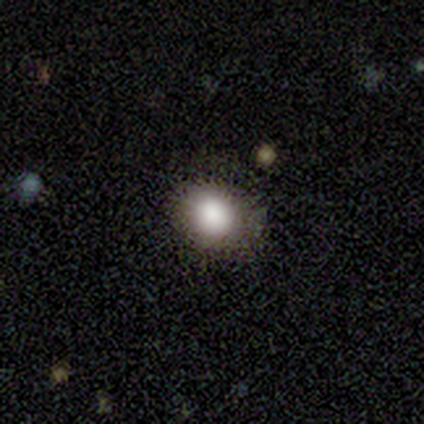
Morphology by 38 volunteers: smooth 79%, featured or disk 13%, star or artifact 8%. Down the decision tree: how rounded — round (73%); merging — none (66%).